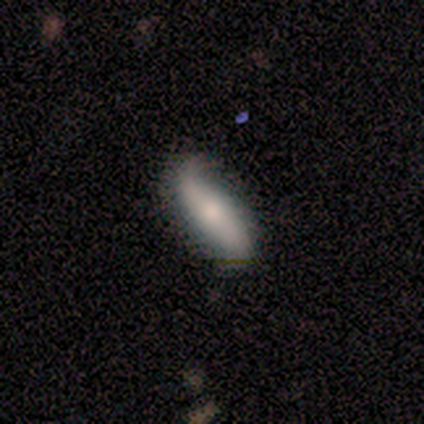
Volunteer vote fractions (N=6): smooth_or_featured: smooth (p=0.50) [tied with: featured or disk p=0.50]
how_rounded: in between (p=1.00)
merging: none (p=0.50) [tied with: minor disturbance p=0.50]